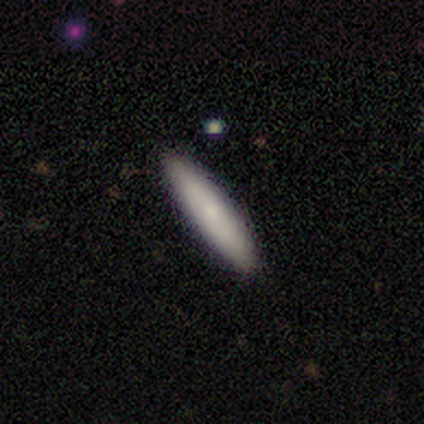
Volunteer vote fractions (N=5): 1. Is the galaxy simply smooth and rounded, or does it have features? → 100% smooth, 0% featured or disk, 0% star or artifact.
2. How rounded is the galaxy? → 100% cigar-shaped, 0% round, 0% in between.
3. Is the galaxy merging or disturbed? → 100% none, 0% minor disturbance, 0% major disturbance, 0% merger.